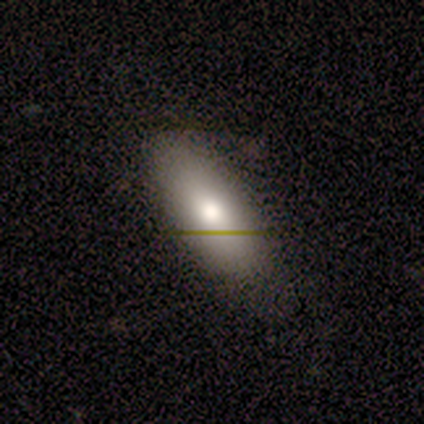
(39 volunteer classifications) Q: Smooth or featured?
A: smooth (74%); runner-up: featured or disk (21%)
Q: How rounded?
A: in between (79%); runner-up: cigar-shaped (17%)
Q: Merging?
A: none (70%); runner-up: minor disturbance (22%)